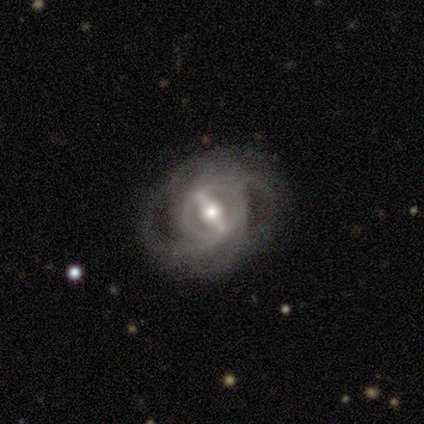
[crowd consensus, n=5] Smooth or featured? 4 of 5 (80%) said featured or disk. Edge-on disk? 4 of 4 (100%) said no. Bar? 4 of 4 (100%) said strong. Spiral arms? 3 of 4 (75%) said yes. Spiral winding? 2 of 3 (67%) said medium. Spiral arm count? 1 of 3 (33%, tied with 3 and can't tell) said 2. Bulge size? 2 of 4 (50%) said moderate. Merging? 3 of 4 (75%) said none.